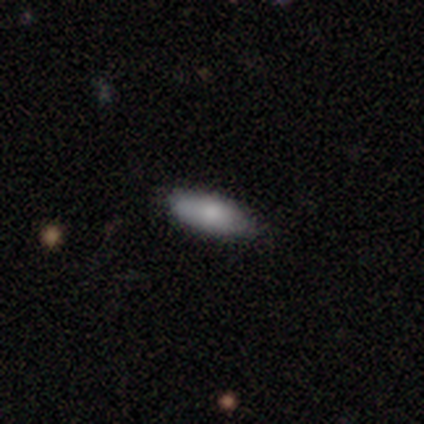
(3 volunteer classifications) Smooth or featured?
  - smooth: 67% *
  - featured or disk: 33%
  - star or artifact: 0%
How rounded?
  - in between: 50% * (tied)
  - cigar-shaped: 50% * (tied)
  - round: 0%
Merging?
  - none: 100% *
  - minor disturbance: 0%
  - major disturbance: 0%
  - merger: 0%